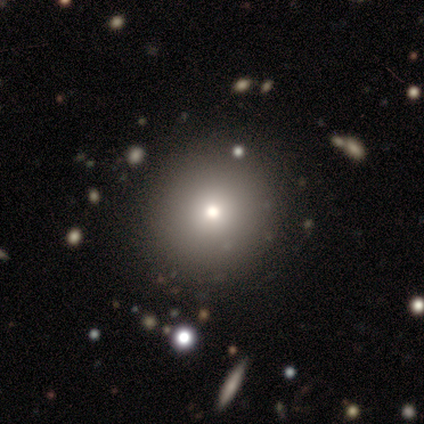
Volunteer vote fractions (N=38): smooth 66%, star or artifact 32%, featured or disk 3%. Down the decision tree: how rounded — round (96%); merging — none (88%).